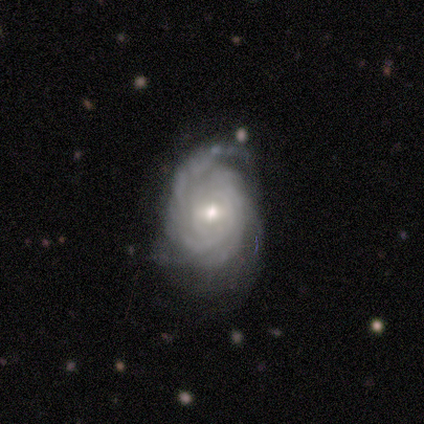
Smooth or featured?
  - featured or disk: 88% *
  - smooth: 12%
  - star or artifact: 0%
Edge-on disk?
  - no: 86% *
  - yes: 14%
Bar?
  - weak: 50% * (tied)
  - no: 50% * (tied)
  - strong: 0%
Spiral arms?
  - yes: 100% *
  - no: 0%
Spiral winding?
  - tight: 83% *
  - medium: 17%
  - loose: 0%
Spiral arm count?
  - can't tell: 50% *
  - 3: 33%
  - more than 4: 17%
  - 1: 0%
  - 2: 0%
  - 4: 0%
Bulge size?
  - moderate: 50% * (tied)
  - small: 50% * (tied)
  - dominant: 0%
  - large: 0%
  - none: 0%
Merging?
  - minor disturbance: 50% *
  - none: 25%
  - major disturbance: 25%
  - merger: 0%